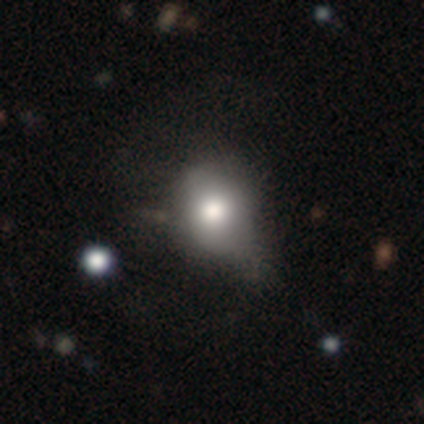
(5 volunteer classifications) Smooth or featured? smooth (80%)
How rounded? round (50%, tied with in between)
Merging? none (25%, tied with minor disturbance, major disturbance and merger)